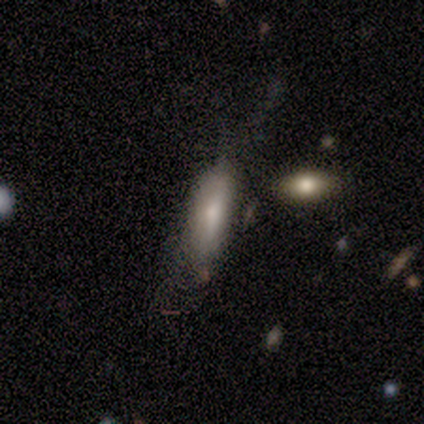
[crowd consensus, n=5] smooth 60%, featured or disk 40%, star or artifact 0%. Down the decision tree: how rounded — in between (67%); merging — minor disturbance (60%).